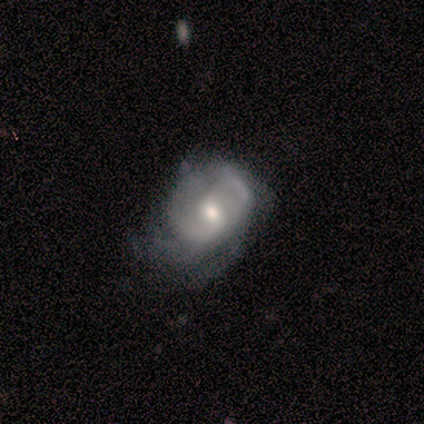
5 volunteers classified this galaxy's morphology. smooth-or-featured: featured or disk: 100% | smooth: 0% | star or artifact: 0%
  disk-edge-on: no: 100% | yes: 0%
    bar: no: 80% | weak: 20% | strong: 0%
    has-spiral-arms: yes: 60% | no: 40%
      spiral-winding: tight: 33% (tied) | medium: 33% (tied) | loose: 33% (tied)
      spiral-arm-count: can't tell: 67% | 2: 33% | 1: 0% | 3: 0% | 4: 0% | more than 4: 0%
    bulge-size: moderate: 60% | small: 40% | dominant: 0% | large: 0% | none: 0%
  merging: major disturbance: 100% | none: 0% | minor disturbance: 0% | merger: 0%